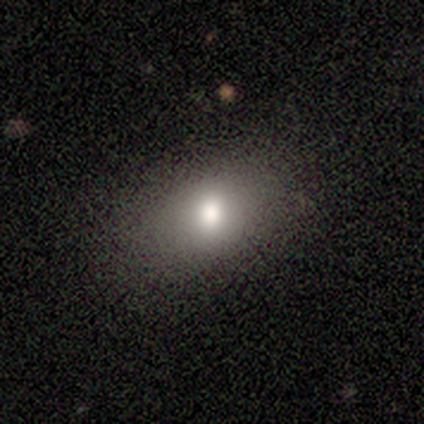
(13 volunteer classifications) A smooth galaxy with no disk features (92%) that is in between round and cigar-shaped (92%). Merging: none (92%).